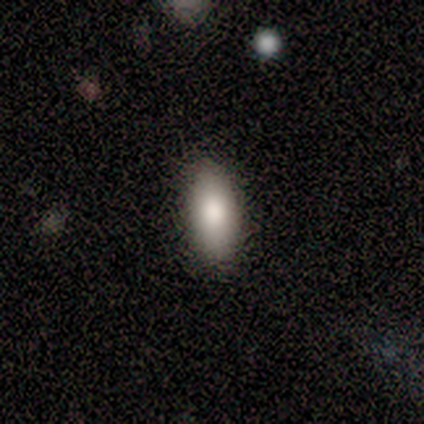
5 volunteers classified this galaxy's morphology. Overall: smooth (60%; featured or disk 40%). How rounded: in between (67%; cigar-shaped 33%). Merging: none (100%).